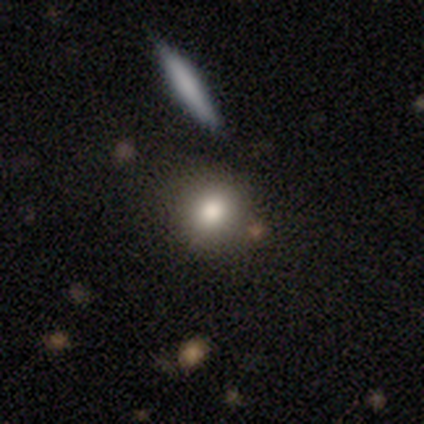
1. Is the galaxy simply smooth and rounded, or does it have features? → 73% smooth, 16% star or artifact, 11% featured or disk.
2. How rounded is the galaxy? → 75% round, 22% in between, 3% cigar-shaped.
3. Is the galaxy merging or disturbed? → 84% none, 8% minor disturbance, 5% major disturbance, 3% merger.